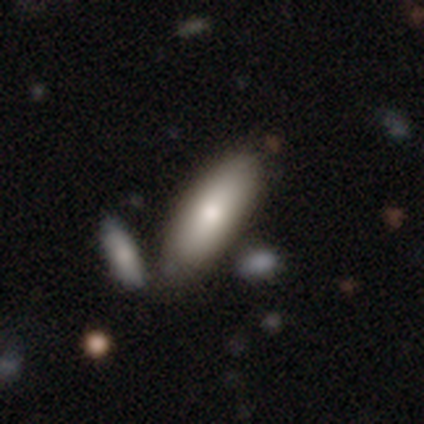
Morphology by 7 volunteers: A smooth galaxy with no disk features (86%) that is in between round and cigar-shaped (67%).

Vote fractions:
- Smooth or featured? smooth: 86% / featured or disk: 14% / star or artifact: 0%
- How rounded? in between: 67% / cigar-shaped: 33% / round: 0%
- Merging? none: 71% / minor disturbance: 29% / major disturbance: 0% / merger: 0%